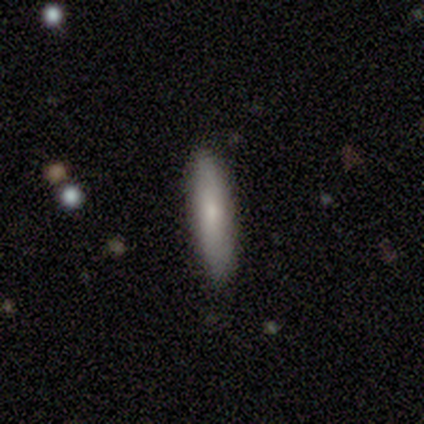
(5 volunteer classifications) Smooth or featured?
  - smooth: 100% *
  - featured or disk: 0%
  - star or artifact: 0%
How rounded?
  - cigar-shaped: 80% *
  - in between: 20%
  - round: 0%
Merging?
  - none: 80% *
  - minor disturbance: 20%
  - major disturbance: 0%
  - merger: 0%